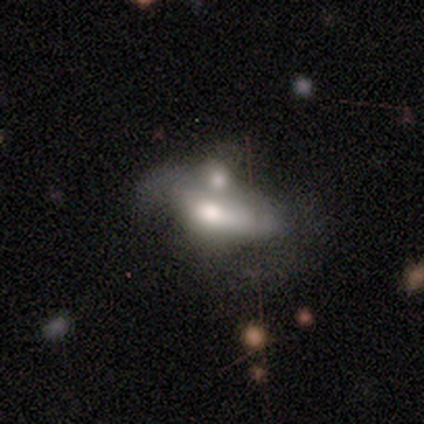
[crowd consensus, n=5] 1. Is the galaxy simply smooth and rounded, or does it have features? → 60% smooth, 40% featured or disk, 0% star or artifact.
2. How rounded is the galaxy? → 67% in between, 33% cigar-shaped, 0% round.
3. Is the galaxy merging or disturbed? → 80% merger, 20% none, 0% minor disturbance, 0% major disturbance.